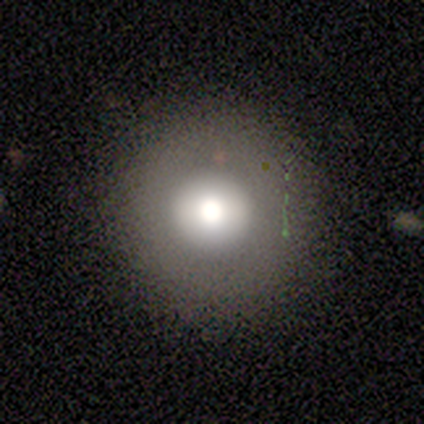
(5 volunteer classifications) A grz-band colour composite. It shows a smooth galaxy with no disk features (80%) that is round (100%). Merging: none (80%).